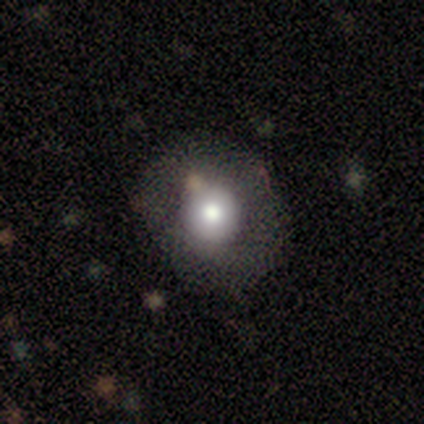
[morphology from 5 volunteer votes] This appears to be a smooth galaxy with no disk features (60%) that is round (100%). Merging: none (67%).